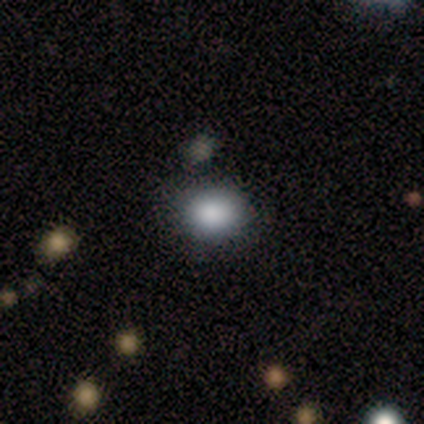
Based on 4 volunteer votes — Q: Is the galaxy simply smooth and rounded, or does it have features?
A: smooth — 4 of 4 (100%).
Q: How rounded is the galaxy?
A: round — 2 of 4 (50%, tied with in between).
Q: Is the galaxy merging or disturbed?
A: none — 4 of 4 (100%).